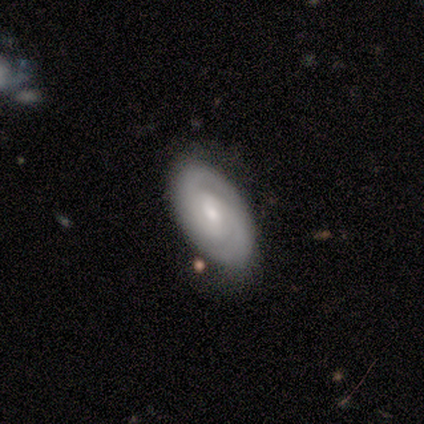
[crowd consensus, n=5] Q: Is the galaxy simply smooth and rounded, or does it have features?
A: featured or disk — 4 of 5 (80%).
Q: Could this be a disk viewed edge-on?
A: no — 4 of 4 (100%).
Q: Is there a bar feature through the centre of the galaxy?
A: weak — 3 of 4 (75%).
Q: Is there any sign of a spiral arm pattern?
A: yes — 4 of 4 (100%).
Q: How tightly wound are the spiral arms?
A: medium — 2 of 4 (50%).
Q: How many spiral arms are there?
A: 2 — 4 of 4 (100%).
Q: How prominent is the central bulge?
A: small — 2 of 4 (50%).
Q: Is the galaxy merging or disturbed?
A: minor disturbance — 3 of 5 (60%).